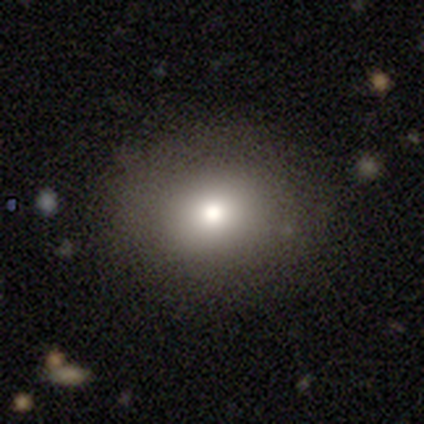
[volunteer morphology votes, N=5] Smooth or featured?
  - smooth: 40% * (tied)
  - star or artifact: 40% * (tied)
  - featured or disk: 20%
How rounded?
  - round: 100% *
  - in between: 0%
  - cigar-shaped: 0%
Merging?
  - none: 100% *
  - minor disturbance: 0%
  - major disturbance: 0%
  - merger: 0%